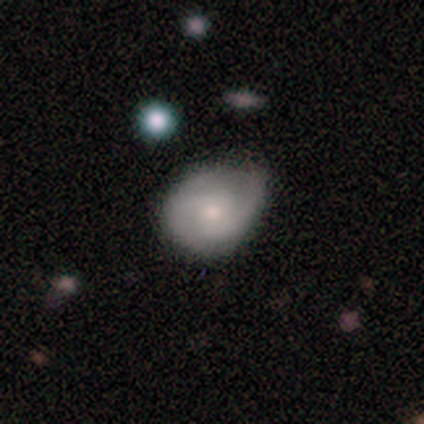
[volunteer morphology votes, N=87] This appears to be a featured or disk galaxy (52%) with no bar (76%), 2 (79%) tight (45%) spiral arms (80%) and a small central bulge (71%). Merging: none (46%).